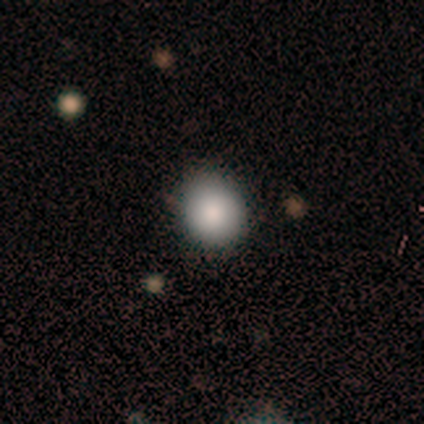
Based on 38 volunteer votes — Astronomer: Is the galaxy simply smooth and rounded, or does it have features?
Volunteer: smooth — 87%.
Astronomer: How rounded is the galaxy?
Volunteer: round — 82%.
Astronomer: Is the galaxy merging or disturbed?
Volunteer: none — 80%.